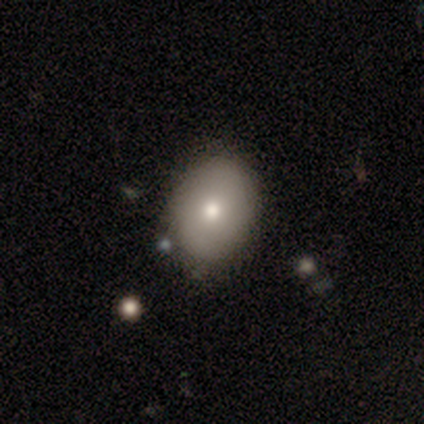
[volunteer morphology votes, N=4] type=smooth (75%); roundness=in between (100%); merging=none (75%).